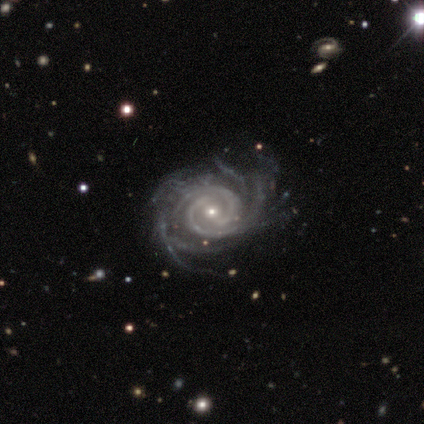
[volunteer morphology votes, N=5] Volunteers were most divided on "merging": none: 60%, minor disturbance: 40%, major disturbance: 0%, merger: 0%. More confident: smooth or featured — featured or disk (100%); edge-on disk — no (100%); spiral arms — yes (100%); bar — strong (80%); spiral arm count — 2 (80%); spiral winding — tight (60%); bulge size — small (60%).